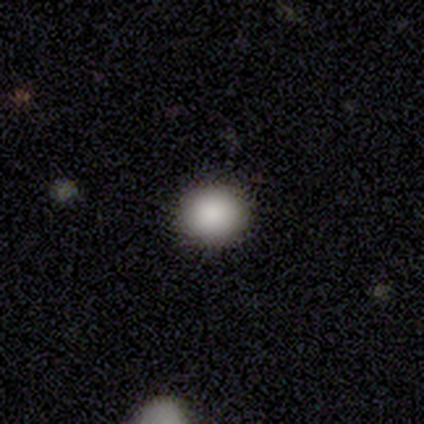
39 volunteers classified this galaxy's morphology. Smooth or featured? 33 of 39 (85%) said smooth. How rounded? 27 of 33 (82%) said round. Merging? 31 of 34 (91%) said none.